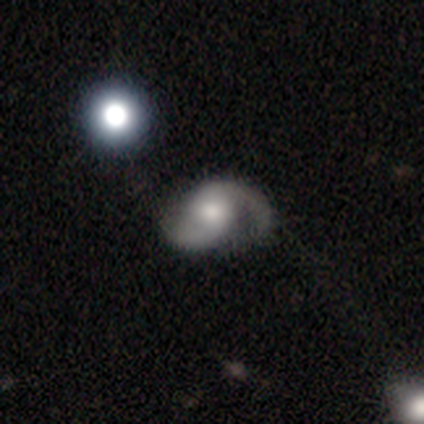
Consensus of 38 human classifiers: Morphology: type=featured or disk (82%); edge-on=no (97%); bar=no (63%); spiral arms=yes (97%); winding=medium (66%); arm count=2 (93%); bulge=moderate (53%); merging=none (59%).